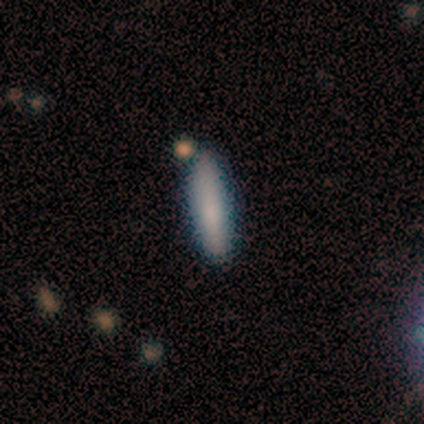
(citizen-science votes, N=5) Overall: smooth (100%). How rounded: cigar-shaped (80%). Merging: none (80%).